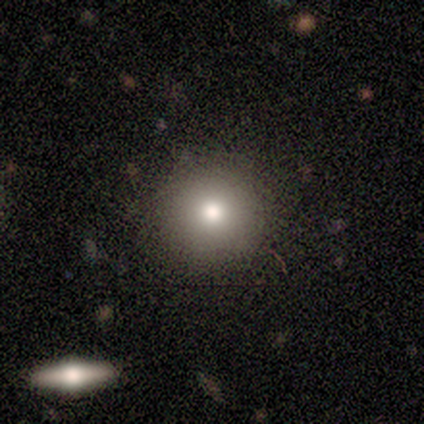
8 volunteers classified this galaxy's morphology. Overall: smooth (62%; featured or disk 38%). How rounded: round (100%). Merging: none (88%).